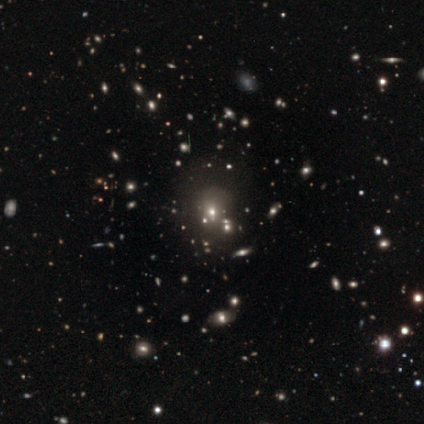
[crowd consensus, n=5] Volunteers were most divided on "smooth or featured": star or artifact: 80%, smooth: 20%, featured or disk: 0%.